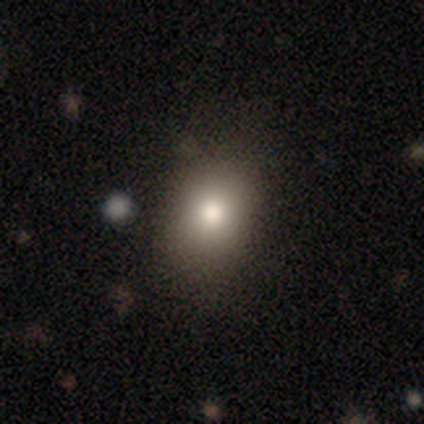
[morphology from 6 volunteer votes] Overall: smooth (100%). How rounded: in between (83%). Merging: none (50%; minor disturbance 33%).